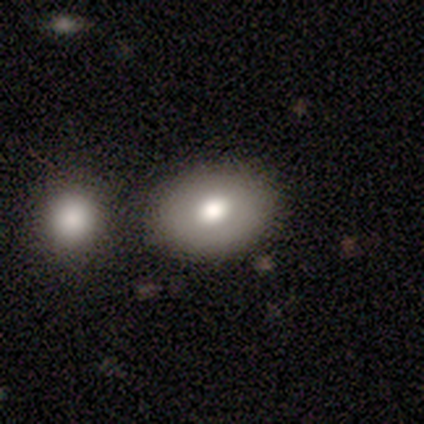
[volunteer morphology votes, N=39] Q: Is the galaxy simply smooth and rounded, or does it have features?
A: smooth — 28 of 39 (72%).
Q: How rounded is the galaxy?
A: in between — 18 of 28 (64%).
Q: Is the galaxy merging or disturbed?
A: none — 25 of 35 (71%).